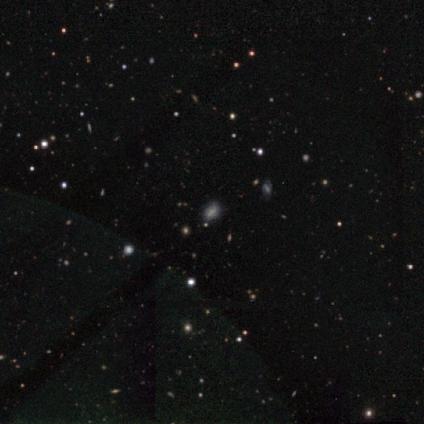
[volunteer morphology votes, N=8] Overall: star or artifact (62%; smooth 25%).